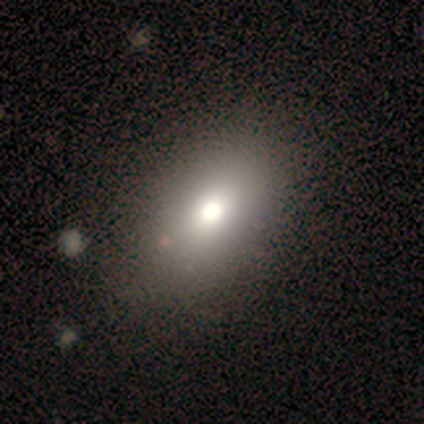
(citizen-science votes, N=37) Smooth or featured? smooth (73%)
How rounded? in between (89%)
Merging? none (61%)